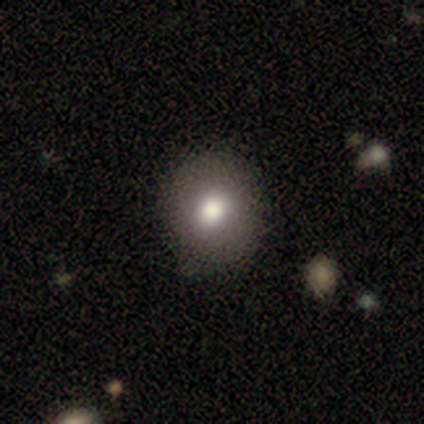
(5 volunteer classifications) Volunteers were most divided on "how rounded": round: 60%, in between: 40%, cigar-shaped: 0%. More confident: smooth or featured — smooth (100%); merging — none (80%).